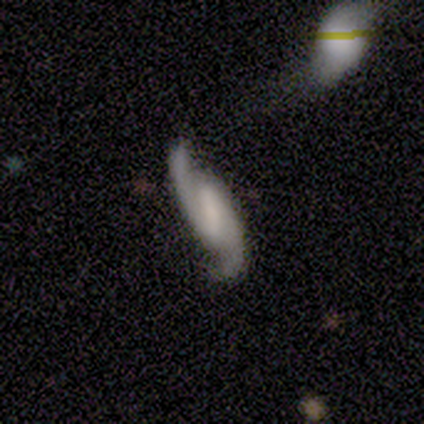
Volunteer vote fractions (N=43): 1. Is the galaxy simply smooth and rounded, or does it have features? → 93% featured or disk, 7% star or artifact, 0% smooth.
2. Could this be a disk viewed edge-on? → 95% no, 5% yes.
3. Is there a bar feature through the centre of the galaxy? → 58% strong, 32% weak, 11% no.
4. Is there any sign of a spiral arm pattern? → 95% yes, 5% no.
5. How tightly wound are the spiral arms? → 47% medium, 42% loose, 11% tight.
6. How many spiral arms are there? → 100% 2, 0% 1, 0% 3, 0% 4, 0% more than 4, 0% can't tell.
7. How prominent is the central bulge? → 29% small (tied), 29% none (tied), 24% moderate, 16% large, 3% dominant.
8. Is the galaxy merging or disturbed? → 72% none, 18% minor disturbance, 10% merger, 0% major disturbance.